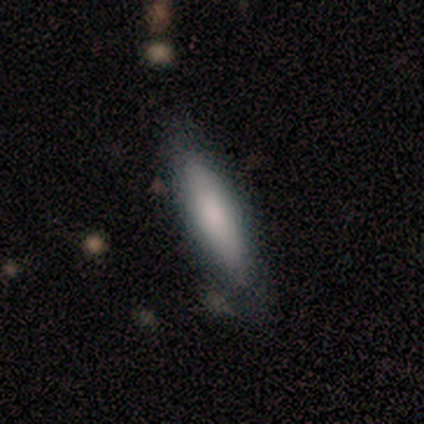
Smooth or featured?
  - smooth: 60% *
  - featured or disk: 40%
  - star or artifact: 0%
How rounded?
  - cigar-shaped: 67% *
  - in between: 33%
  - round: 0%
Merging?
  - none: 60% *
  - minor disturbance: 40%
  - major disturbance: 0%
  - merger: 0%